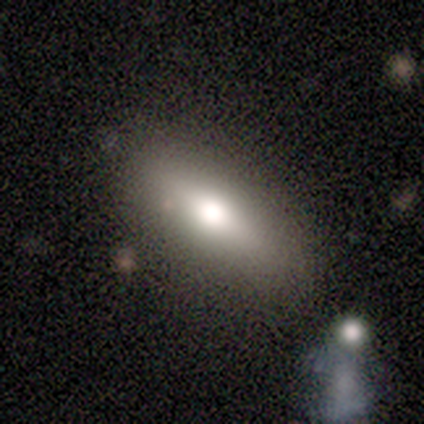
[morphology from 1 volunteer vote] Overall: featured or disk (100%). Edge-on disk: yes (100%). Edge-on bulge: rounded (100%). Merging: none (100%).